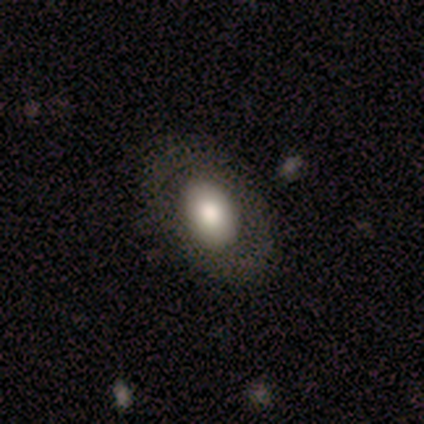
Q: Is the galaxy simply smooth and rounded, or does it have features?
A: smooth — 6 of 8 (75%).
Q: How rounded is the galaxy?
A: in between — 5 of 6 (83%).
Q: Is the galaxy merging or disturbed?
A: none — 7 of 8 (88%).